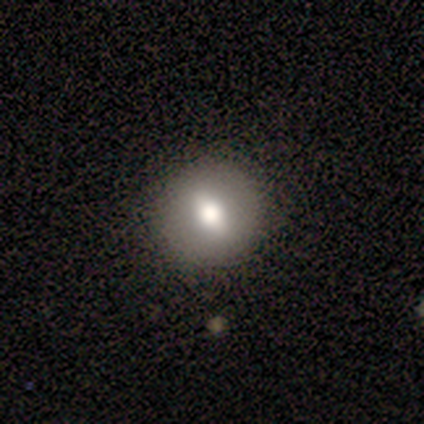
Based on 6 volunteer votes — This is likely a smooth galaxy (67%). How rounded: possibly in between (50%). Merging: clearly none (83%).